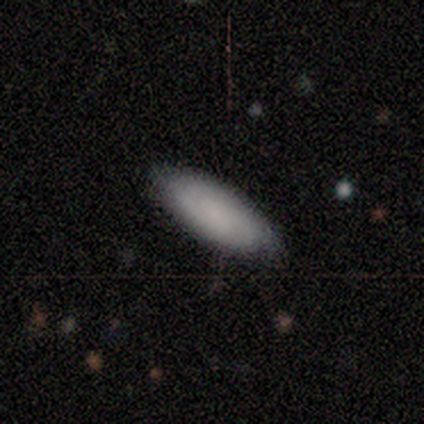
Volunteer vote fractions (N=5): Smooth or featured? smooth (80%)
How rounded? in between (75%)
Merging? none (80%)